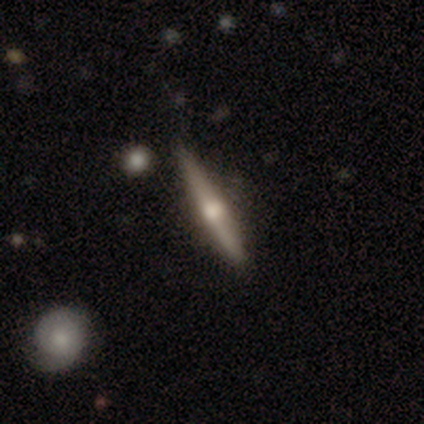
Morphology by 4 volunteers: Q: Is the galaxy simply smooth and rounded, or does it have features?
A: smooth — 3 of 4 (75%).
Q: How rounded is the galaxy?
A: cigar-shaped — 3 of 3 (100%).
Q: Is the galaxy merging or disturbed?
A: none — 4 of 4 (100%).